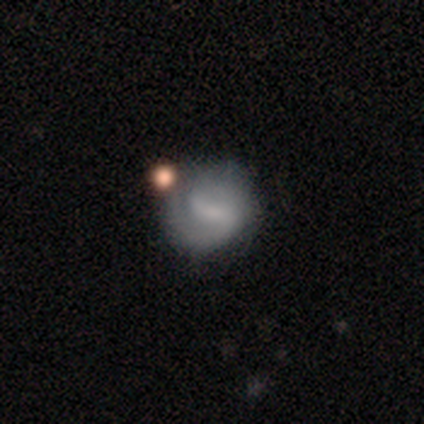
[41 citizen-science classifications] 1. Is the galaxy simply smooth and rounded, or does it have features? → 83% featured or disk, 15% smooth, 2% star or artifact.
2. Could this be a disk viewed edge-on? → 97% no, 3% yes.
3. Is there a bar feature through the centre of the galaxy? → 55% weak, 27% strong, 18% no.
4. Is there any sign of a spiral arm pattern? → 91% yes, 9% no.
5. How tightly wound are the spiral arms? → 53% medium, 37% tight, 10% loose.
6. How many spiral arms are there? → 67% 2, 20% 1, 13% can't tell, 0% 3, 0% 4, 0% more than 4.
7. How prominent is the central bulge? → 58% small, 33% none, 6% moderate, 3% dominant, 0% large.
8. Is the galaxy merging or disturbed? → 50% none, 15% minor disturbance, 8% merger, 2% major disturbance.